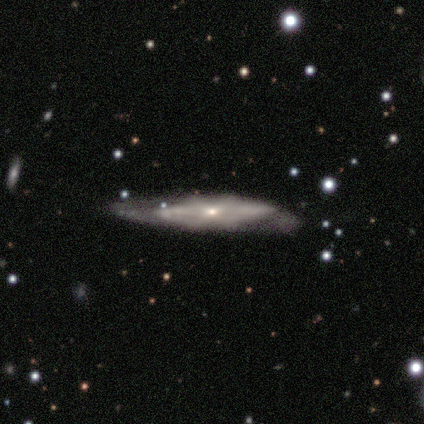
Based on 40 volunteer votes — This appears to be a featured or disk galaxy (70%) viewed edge-on (54%) with a rounded central bulge (67%). Merging: none (50%).